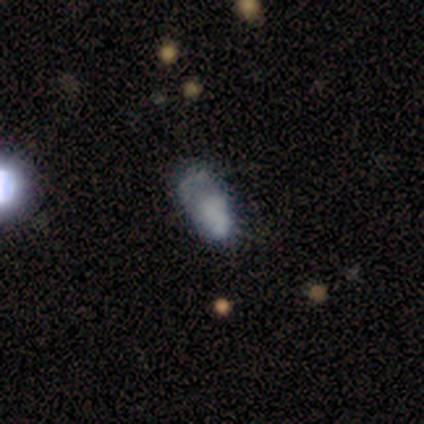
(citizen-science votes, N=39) Smooth or featured?
  - featured or disk: 38% *
  - smooth: 36%
  - star or artifact: 26%
Edge-on disk?
  - no: 100% *
  - yes: 0%
Bar?
  - no: 93% *
  - weak: 7%
  - strong: 0%
Spiral arms?
  - no: 73% *
  - yes: 27%
Bulge size?
  - none: 60% *
  - large: 20%
  - small: 13%
  - dominant: 7%
  - moderate: 0%
Merging?
  - minor disturbance: 38% *
  - none: 31%
  - major disturbance: 28%
  - merger: 3%